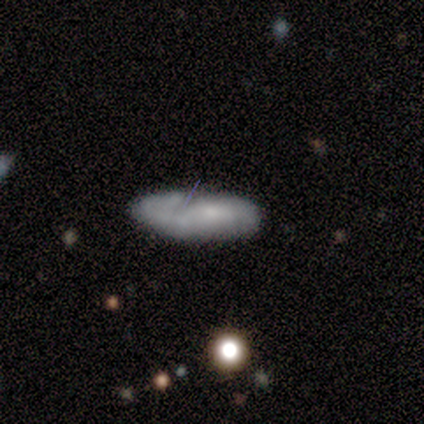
smooth_or_featured: featured or disk (p=0.80) [alt: smooth p=0.20]
disk_edge_on: no (p=1.00)
bar: no (p=0.75) [alt: weak p=0.25]
has_spiral_arms: no (p=0.75) [alt: yes p=0.25]
bulge_size: none (p=1.00)
merging: none (p=0.60) [alt: minor disturbance p=0.40]